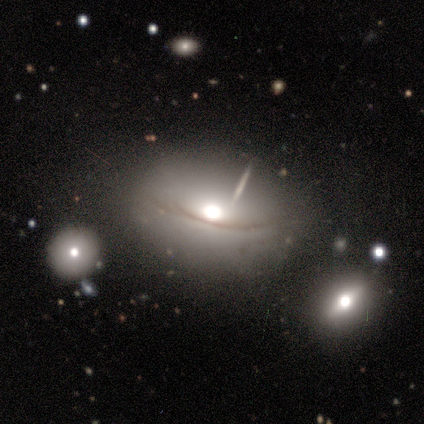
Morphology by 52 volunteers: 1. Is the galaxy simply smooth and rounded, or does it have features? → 52% smooth, 42% featured or disk, 6% star or artifact.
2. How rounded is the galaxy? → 81% in between, 19% round, 0% cigar-shaped.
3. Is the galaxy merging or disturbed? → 65% none, 22% minor disturbance, 8% merger, 4% major disturbance.